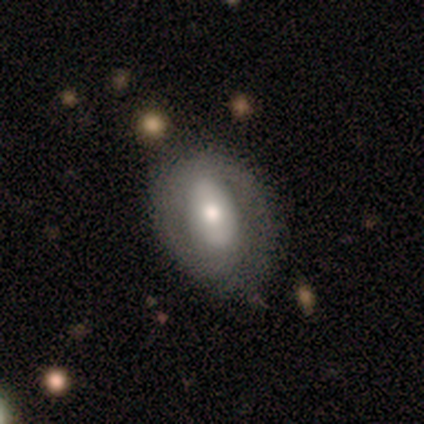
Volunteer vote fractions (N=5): Volunteers were most divided on "spiral winding": medium: 50%, tight: 25%, loose: 25%. More confident: edge-on disk — no (100%); spiral arms — yes (100%); merging — none (100%); smooth or featured — featured or disk (80%); bar — strong (75%); bulge size — moderate (75%); spiral arm count — 1 (50%).